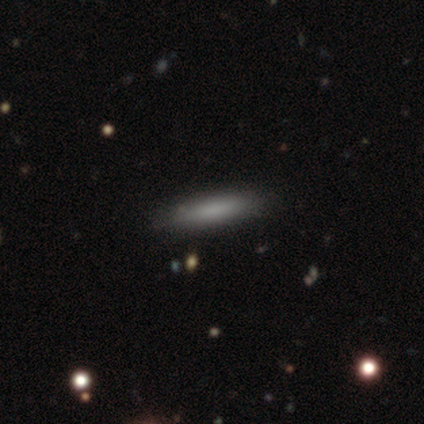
smooth-or-featured: smooth: 80% | star or artifact: 20% | featured or disk: 0%
  how-rounded: cigar-shaped: 75% | in between: 25% | round: 0%
  merging: none: 100% | minor disturbance: 0% | major disturbance: 0% | merger: 0%